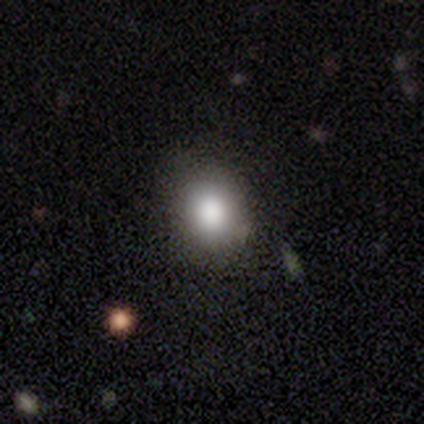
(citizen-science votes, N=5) Smooth or featured?
  - smooth: 80% *
  - star or artifact: 20%
  - featured or disk: 0%
How rounded?
  - round: 50% * (tied)
  - in between: 50% * (tied)
  - cigar-shaped: 0%
Merging?
  - none: 100% *
  - minor disturbance: 0%
  - major disturbance: 0%
  - merger: 0%